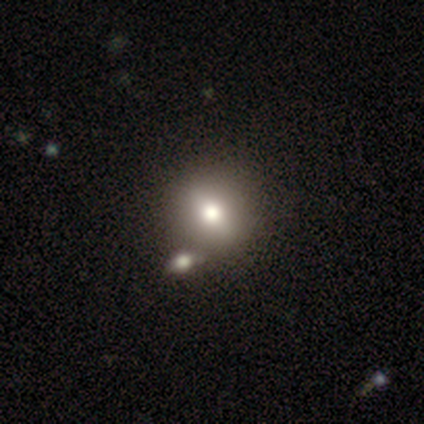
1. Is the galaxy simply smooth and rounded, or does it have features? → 80% smooth, 20% featured or disk, 0% star or artifact.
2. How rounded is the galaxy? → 50% round (tied), 50% in between (tied), 0% cigar-shaped.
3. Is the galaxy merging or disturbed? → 80% none, 20% merger, 0% minor disturbance, 0% major disturbance.